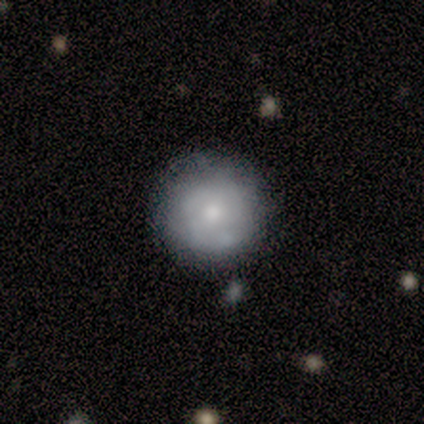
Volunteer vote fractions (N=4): smooth-or-featured: smooth: 50% (tied) | featured or disk: 50% (tied) | star or artifact: 0%
  how-rounded: round: 100% | in between: 0% | cigar-shaped: 0%
  merging: none: 75% | merger: 25% | minor disturbance: 0% | major disturbance: 0%